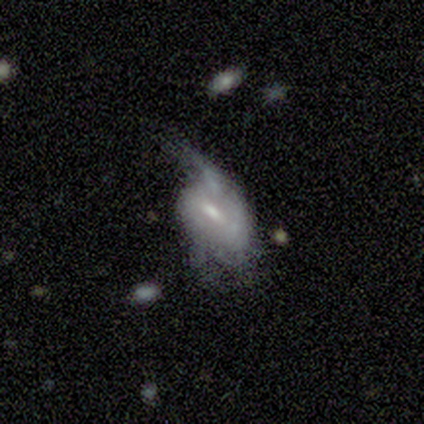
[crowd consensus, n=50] Overall: featured or disk (78%). Edge-on disk: no (87%). Bar: weak (56%; no 32%). Spiral arms: yes (59%; no 41%). Spiral arm count: can't tell (55%; 2 30%). Spiral winding: tight (45%; loose 40%). Bulge size: moderate (44%; small 41%). Merging: major disturbance (50%; minor disturbance 27%).